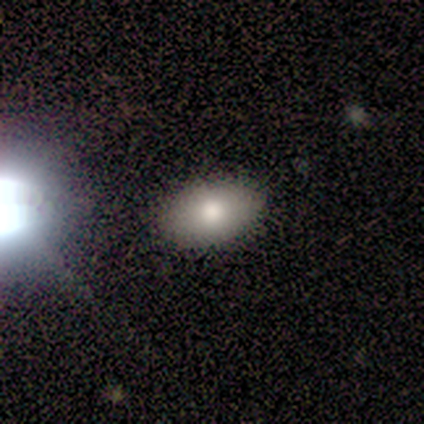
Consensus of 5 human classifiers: Overall: smooth (60%; star or artifact 40%). How rounded: in between (100%). Merging: none (100%).